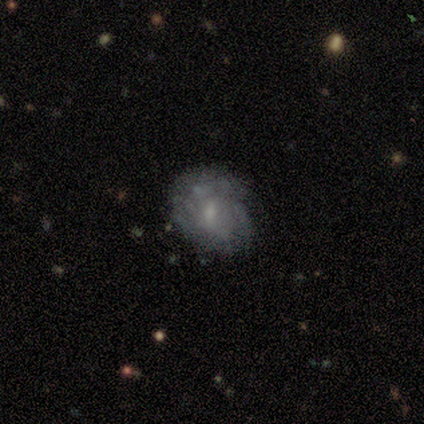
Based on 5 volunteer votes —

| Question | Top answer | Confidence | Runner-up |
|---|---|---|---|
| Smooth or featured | smooth | 60% | featured or disk (20%) |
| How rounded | in between | 67% | round (33%) |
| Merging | none | 50% | minor disturbance (25%) |